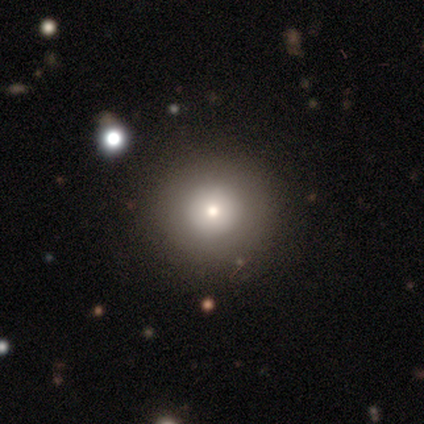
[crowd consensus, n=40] This appears to be a smooth galaxy with no disk features (62%) that is round (88%). Merging: none (94%).